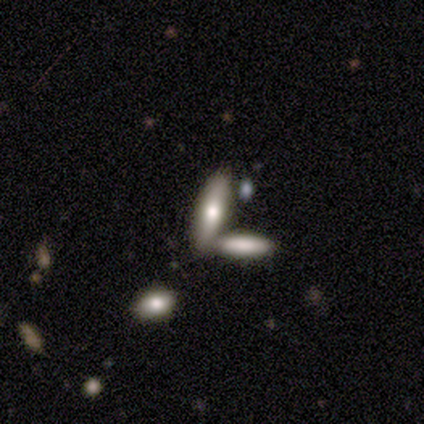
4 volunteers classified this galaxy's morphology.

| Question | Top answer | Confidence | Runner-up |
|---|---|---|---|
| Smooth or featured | smooth | 75% | featured or disk (25%) |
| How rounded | in between | 67% | cigar-shaped (33%) |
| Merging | none | 50% | tied: merger (50%) |